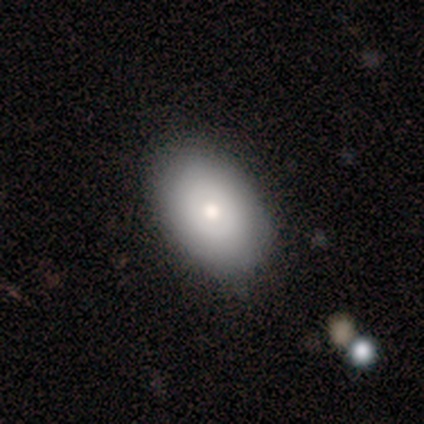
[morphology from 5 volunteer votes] Smooth or featured: smooth — 60% (featured or disk — 40%)
How rounded: in between — 100%
Merging: none — 100%